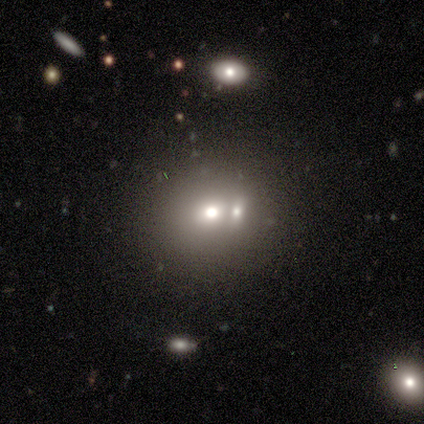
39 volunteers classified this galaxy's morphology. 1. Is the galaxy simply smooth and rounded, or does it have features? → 82% smooth, 10% featured or disk, 8% star or artifact.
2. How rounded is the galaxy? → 75% round, 25% in between, 0% cigar-shaped.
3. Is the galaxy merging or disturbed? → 69% merger, 0% none, 0% minor disturbance, 0% major disturbance.